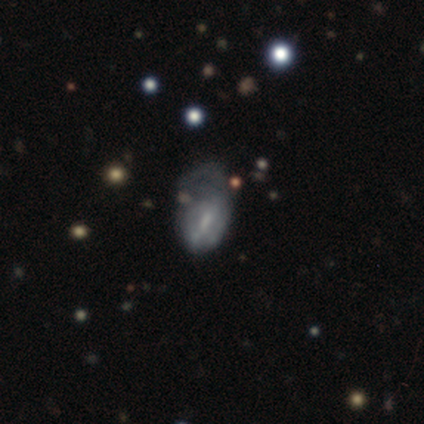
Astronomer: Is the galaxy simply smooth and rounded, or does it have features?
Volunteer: smooth — 50%.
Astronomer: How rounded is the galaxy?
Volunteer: in between — 100%.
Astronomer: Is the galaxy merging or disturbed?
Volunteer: major disturbance — 100%.